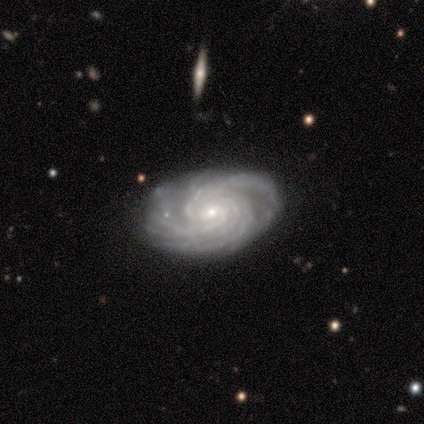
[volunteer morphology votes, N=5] smooth_or_featured: featured or disk (p=1.00)
disk_edge_on: no (p=1.00)
bar: no (p=0.60) [alt: weak p=0.40]
has_spiral_arms: yes (p=1.00)
spiral_winding: tight (p=0.80) [alt: medium p=0.20]
spiral_arm_count: more than 4 (p=0.80) [alt: can't tell p=0.20]
bulge_size: small (p=0.60) [alt: moderate p=0.40]
merging: none (p=0.80) [alt: minor disturbance p=0.20]